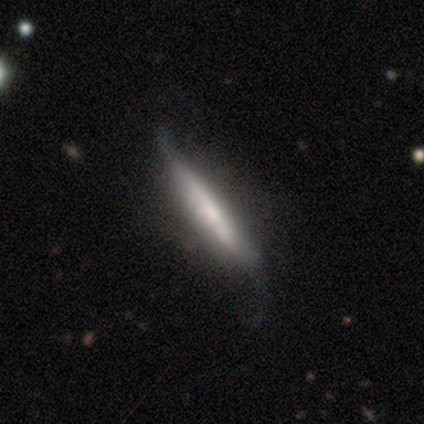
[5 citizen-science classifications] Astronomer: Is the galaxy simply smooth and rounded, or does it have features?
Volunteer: smooth — 60% (runner-up: featured or disk, 40%).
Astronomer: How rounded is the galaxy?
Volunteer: cigar-shaped — 100%.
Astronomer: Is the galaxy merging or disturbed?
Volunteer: minor disturbance — 60% (runner-up: none, 40%).